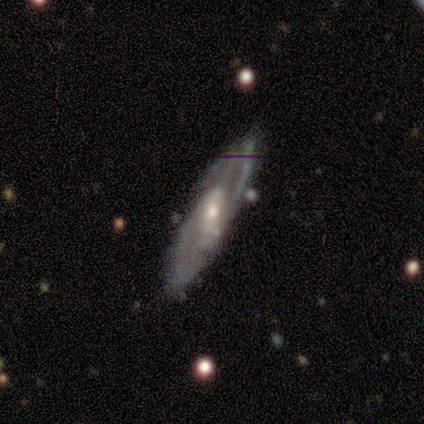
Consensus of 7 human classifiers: smooth-or-featured: featured or disk: 71% | smooth: 29% | star or artifact: 0%
  disk-edge-on: no: 60% | yes: 40%
    bar: weak: 100% | strong: 0% | no: 0%
    has-spiral-arms: yes: 100% | no: 0%
      spiral-winding: medium: 100% | tight: 0% | loose: 0%
      spiral-arm-count: 1: 33% (tied) | 2: 33% (tied) | can't tell: 33% (tied) | 3: 0% | 4: 0% | more than 4: 0%
    bulge-size: small: 100% | dominant: 0% | large: 0% | moderate: 0% | none: 0%
  merging: none: 86% | major disturbance: 14% | minor disturbance: 0% | merger: 0%